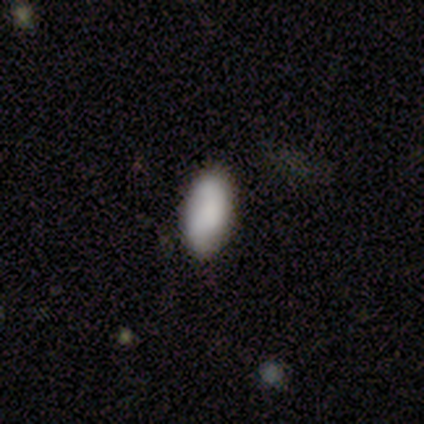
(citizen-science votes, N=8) Smooth or featured?
  - smooth: 75% *
  - featured or disk: 12%
  - star or artifact: 12%
How rounded?
  - in between: 100% *
  - round: 0%
  - cigar-shaped: 0%
Merging?
  - none: 71% *
  - minor disturbance: 29%
  - major disturbance: 0%
  - merger: 0%